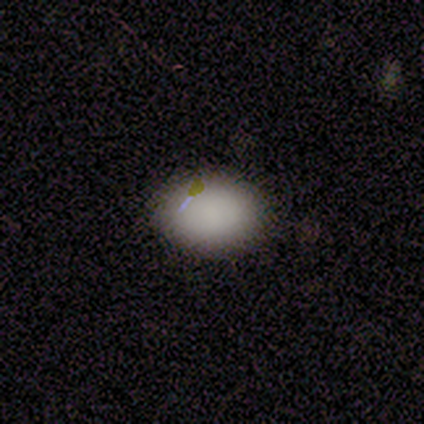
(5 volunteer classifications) Morphology: type=smooth (80%); roundness=in between (75%); merging=none (100%).